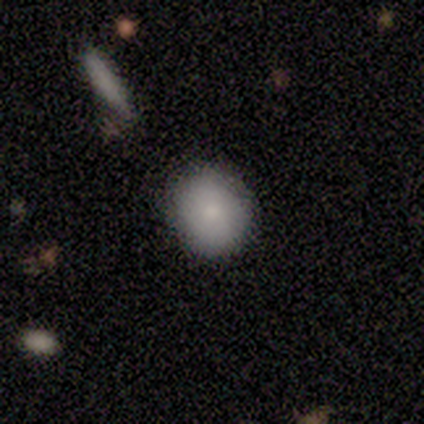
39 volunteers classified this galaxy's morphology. Volunteers were most divided on "how rounded": round: 81%, in between: 19%, cigar-shaped: 0%. More confident: smooth or featured — smooth (79%); merging — none (76%).